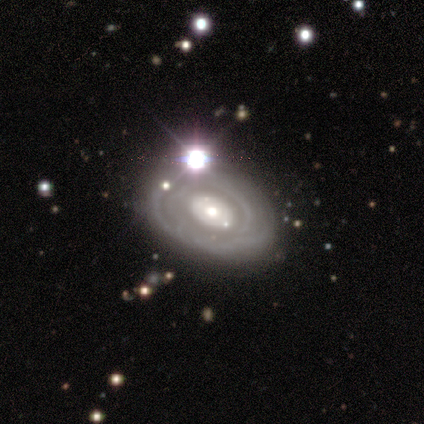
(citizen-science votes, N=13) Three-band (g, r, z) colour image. It shows a featured or disk galaxy (69%) with no bar (89%), no spiral arms (56%) and a moderate central bulge (44%, tied with small). Merging: none (64%).